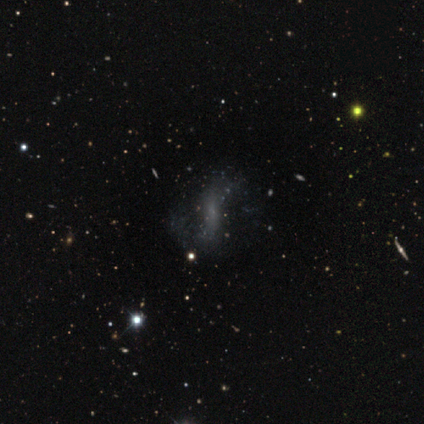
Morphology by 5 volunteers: A featured or disk galaxy (60%) with no bar (67%), 2 (100%) loose (100%) spiral arms (100%) and no central bulge (67%).

Vote fractions:
- Smooth or featured? featured or disk: 60% / star or artifact: 40% / smooth: 0%
- Edge-on disk? no: 100% / yes: 0%
- Bar? no: 67% / strong: 33% / weak: 0%
- Spiral arms? yes: 100% / no: 0%
- Spiral winding? loose: 100% / tight: 0% / medium: 0%
- Spiral arm count? 2: 100% / 1: 0% / 3: 0% / 4: 0% / more than 4: 0% / can't tell: 0%
- Bulge size? none: 67% / small: 33% / dominant: 0% / large: 0% / moderate: 0%
- Merging? none: 67% / minor disturbance: 33% / major disturbance: 0% / merger: 0%